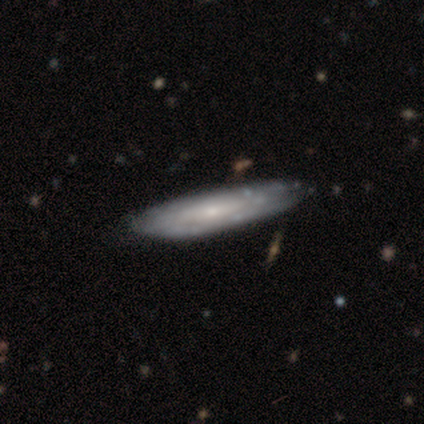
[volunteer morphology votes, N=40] featured or disk 80%, smooth 20%, star or artifact 0%. Down the decision tree: edge-on disk — no (62%); bar — weak (40%, tied with no); spiral arms — no (55%); bulge size — small (80%); merging — none (55%).